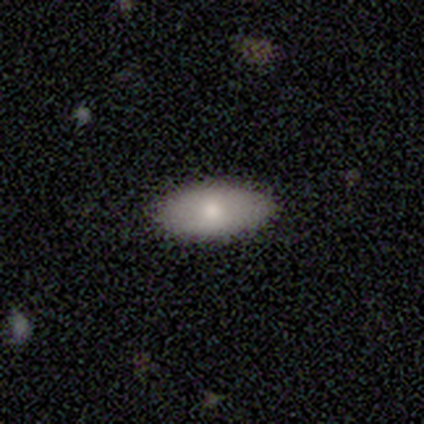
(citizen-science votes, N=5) smooth-or-featured: smooth: 80% | featured or disk: 20% | star or artifact: 0%
  how-rounded: in between: 100% | round: 0% | cigar-shaped: 0%
  merging: none: 100% | minor disturbance: 0% | major disturbance: 0% | merger: 0%